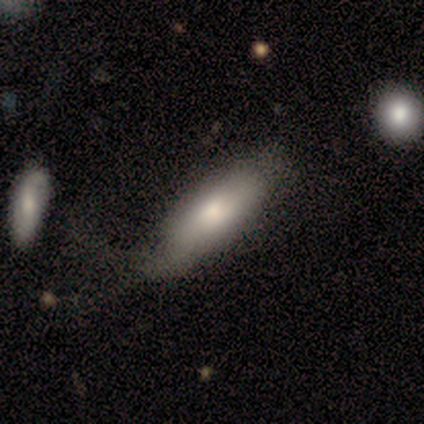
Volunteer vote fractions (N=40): Smooth or featured? smooth (70%)
How rounded? in between (68%)
Merging? none (29%)